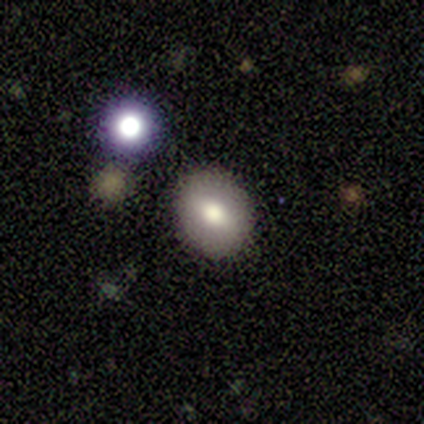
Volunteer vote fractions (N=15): A smooth galaxy with no disk features (60%) that is in between round and cigar-shaped (56%).

Vote fractions:
- Smooth or featured? smooth: 60% / featured or disk: 27% / star or artifact: 13%
- How rounded? in between: 56% / round: 44% / cigar-shaped: 0%
- Merging? none: 92% / minor disturbance: 8% / major disturbance: 0% / merger: 0%